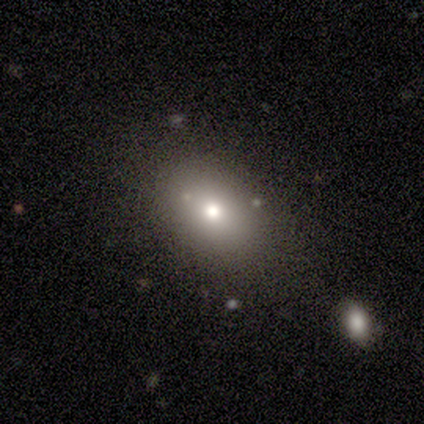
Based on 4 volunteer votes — A smooth galaxy with no disk features (100%) that is round (50%, tied with in between).

Vote fractions:
- Smooth or featured? smooth: 100% / featured or disk: 0% / star or artifact: 0%
- How rounded? round: 50% (tied) / in between: 50% (tied) / cigar-shaped: 0%
- Merging? none: 100% / minor disturbance: 0% / major disturbance: 0% / merger: 0%